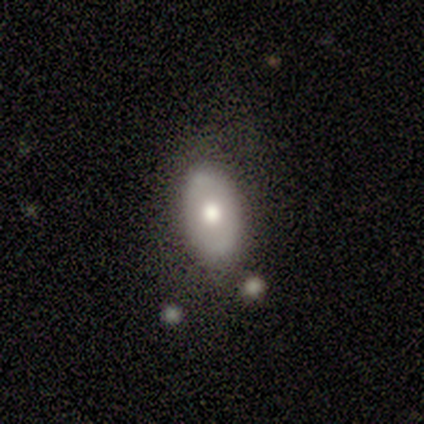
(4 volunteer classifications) Smooth or featured?
  - smooth: 50% * (tied)
  - featured or disk: 50% * (tied)
  - star or artifact: 0%
How rounded?
  - in between: 100% *
  - round: 0%
  - cigar-shaped: 0%
Merging?
  - none: 100% *
  - minor disturbance: 0%
  - major disturbance: 0%
  - merger: 0%